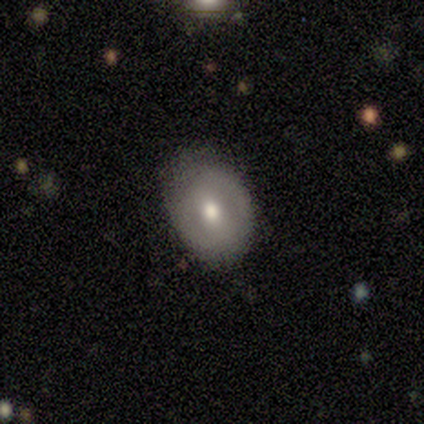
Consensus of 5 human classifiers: Overall: smooth (60%; featured or disk 40%). How rounded: round (67%; in between 33%). Merging: none (100%).